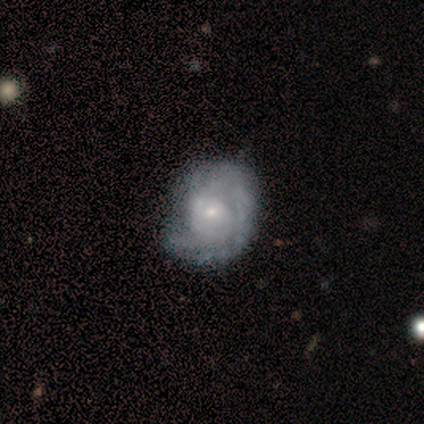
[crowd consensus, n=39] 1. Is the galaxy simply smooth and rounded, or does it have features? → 90% featured or disk, 10% smooth, 0% star or artifact.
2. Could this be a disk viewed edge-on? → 100% no, 0% yes.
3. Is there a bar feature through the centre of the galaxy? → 80% no, 20% weak, 0% strong.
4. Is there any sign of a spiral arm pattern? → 89% yes, 11% no.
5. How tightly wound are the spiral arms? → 65% tight, 23% loose, 13% medium.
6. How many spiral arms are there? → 52% can't tell, 23% 2, 16% 1, 6% 3, 3% more than 4, 0% 4.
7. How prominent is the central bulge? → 71% small, 26% moderate, 3% none, 0% dominant, 0% large.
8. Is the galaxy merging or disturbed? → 44% none, 18% major disturbance, 8% minor disturbance, 0% merger.